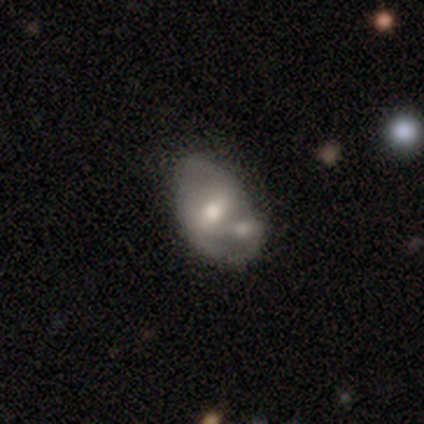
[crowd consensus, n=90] This is likely a featured or disk galaxy (67%). It is clearly not viewed edge-on (92%). Bar: possibly weak (53%). Spiral arm pattern: possibly no (53%). Central bulge: likely moderate (71%). Merging: marginally merger (34%).